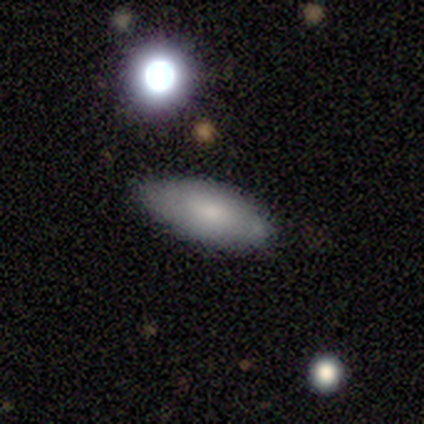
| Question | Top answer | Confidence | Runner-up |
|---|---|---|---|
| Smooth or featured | smooth | 100% | — |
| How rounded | in between | 50% | round (25%) |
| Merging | none | 100% | — |